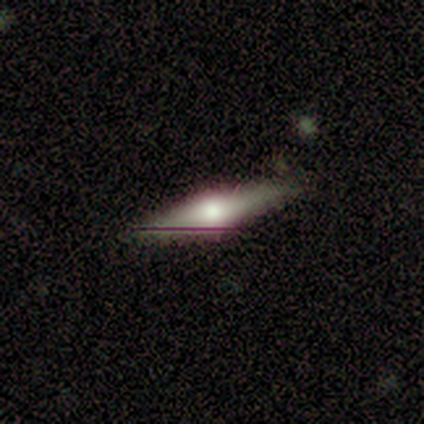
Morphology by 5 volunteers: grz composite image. It shows a featured or disk galaxy (60%) viewed edge-on (100%) with a rounded central bulge (100%). Merging: none (100%).